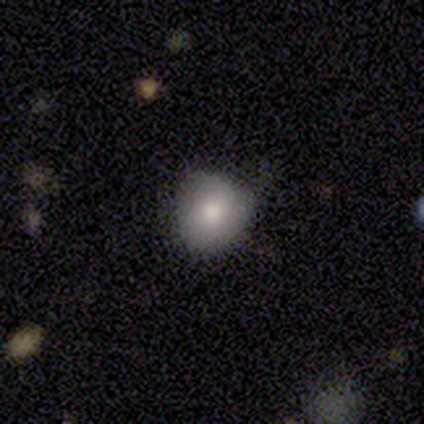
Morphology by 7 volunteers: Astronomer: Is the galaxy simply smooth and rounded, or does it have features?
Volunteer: smooth — 100%.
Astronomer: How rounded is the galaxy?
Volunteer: round — 86%.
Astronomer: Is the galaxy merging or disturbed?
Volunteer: none — 86%.